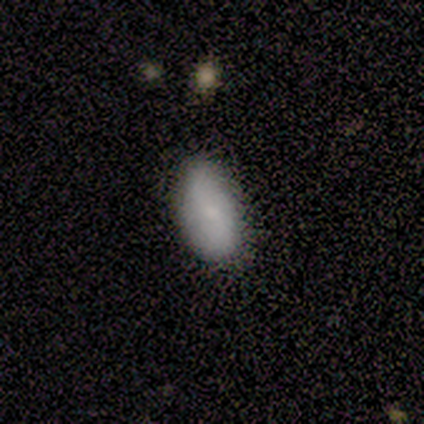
A smooth galaxy with no disk features (80%) that is in between round and cigar-shaped (75%). Merging: none (100%).